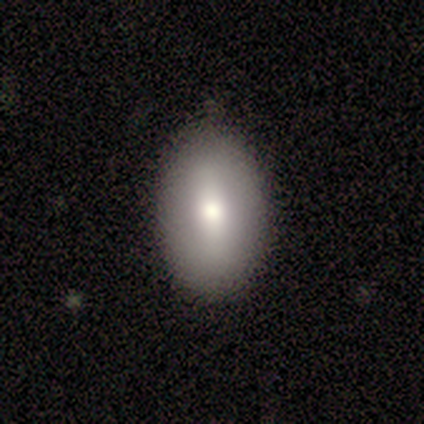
Overall: smooth (74%). How rounded: in between (89%). Merging: none (79%).